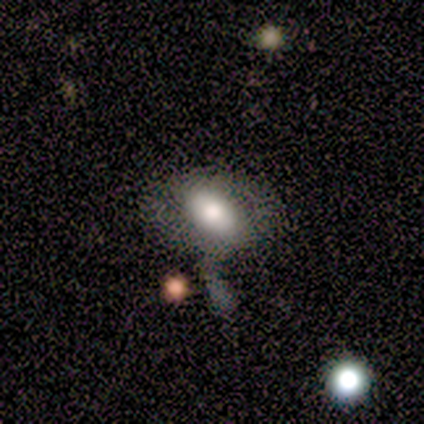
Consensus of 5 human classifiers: Overall: smooth (40%, tied with featured or disk). How rounded: round (50%, tied with in between). Merging: major disturbance (75%).